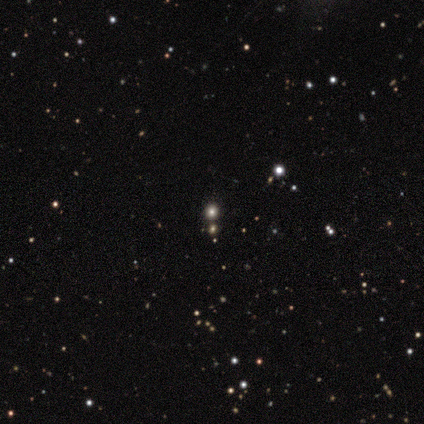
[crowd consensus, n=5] Volunteers were most divided on "smooth or featured": star or artifact: 60%, smooth: 40%, featured or disk: 0%.